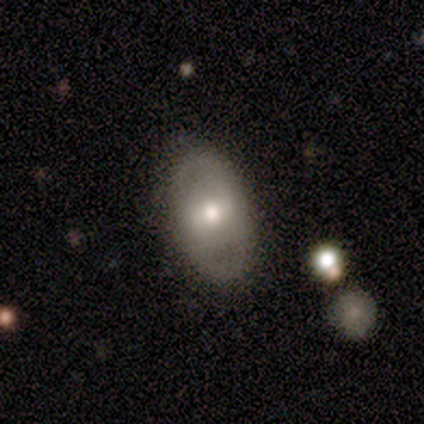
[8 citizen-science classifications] smooth-or-featured: featured or disk: 62% | smooth: 25% | star or artifact: 12%
  disk-edge-on: no: 100% | yes: 0%
    bar: no: 60% | strong: 20% | weak: 20%
    has-spiral-arms: yes: 60% | no: 40%
      spiral-winding: tight: 33% (tied) | medium: 33% (tied) | loose: 33% (tied)
      spiral-arm-count: 2: 100% | 1: 0% | 3: 0% | 4: 0% | more than 4: 0% | can't tell: 0%
    bulge-size: large: 40% (tied) | moderate: 40% (tied) | small: 20% | dominant: 0% | none: 0%
  merging: none: 86% | minor disturbance: 14% | major disturbance: 0% | merger: 0%